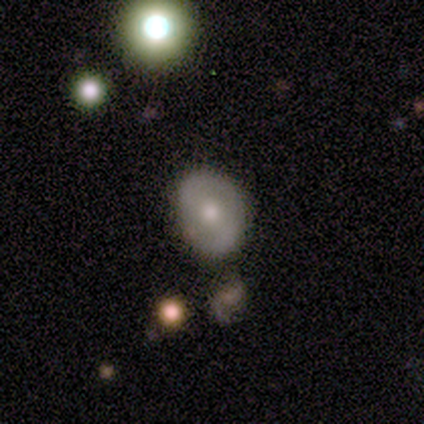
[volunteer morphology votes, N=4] type=smooth (100%); roundness=in between (75%); merging=none (75%).